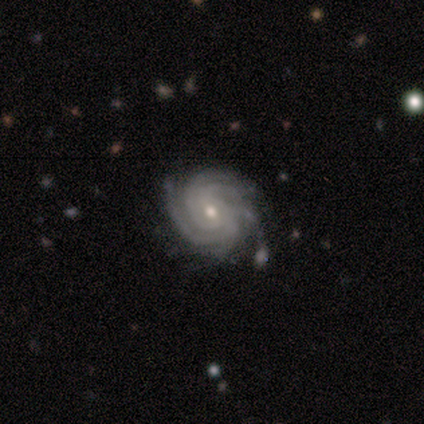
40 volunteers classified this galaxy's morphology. Smooth or featured? 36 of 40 (90%) said featured or disk. Edge-on disk? 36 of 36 (100%) said no. Bar? 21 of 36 (58%) said no. Spiral arms? 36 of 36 (100%) said yes. Spiral winding? 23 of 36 (64%) said tight. Spiral arm count? 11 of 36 (31%) said more than 4. Bulge size? 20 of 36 (56%) said moderate. Merging? 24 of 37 (65%) said none.